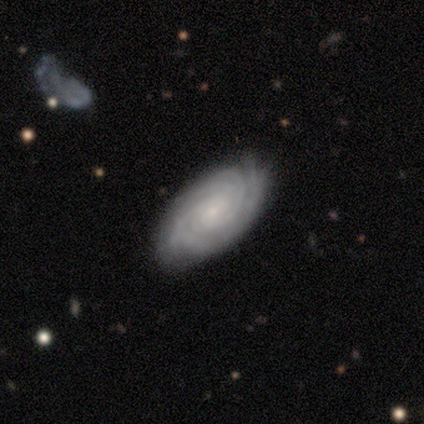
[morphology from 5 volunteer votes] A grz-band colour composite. It shows a featured or disk galaxy (100%) with no bar (60%), 3 (80%) tight (80%) spiral arms (100%) and a small central bulge (80%). Merging: none (80%).